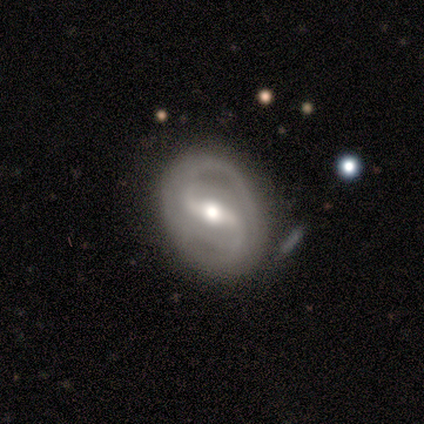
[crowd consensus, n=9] Smooth or featured? 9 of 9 (100%) said featured or disk. Edge-on disk? 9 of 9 (100%) said no. Bar? 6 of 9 (67%) said strong. Spiral arms? 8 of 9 (89%) said yes. Spiral winding? 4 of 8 (50%) said loose. Spiral arm count? 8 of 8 (100%) said 2. Bulge size? 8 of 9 (89%) said moderate. Merging? 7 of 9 (78%) said none.